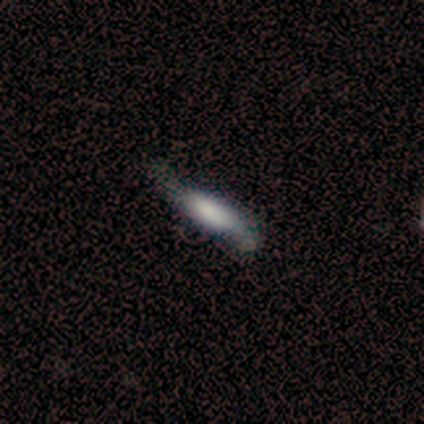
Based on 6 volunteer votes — A smooth galaxy with no disk features (67%) that is cigar-shaped (75%). Merging: minor disturbance (60%).